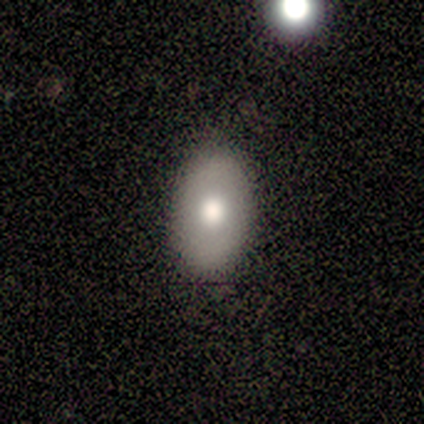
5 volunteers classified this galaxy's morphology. Smooth or featured: smooth — 100%
How rounded: in between — 100%
Merging: none — 80% (minor disturbance — 20%)